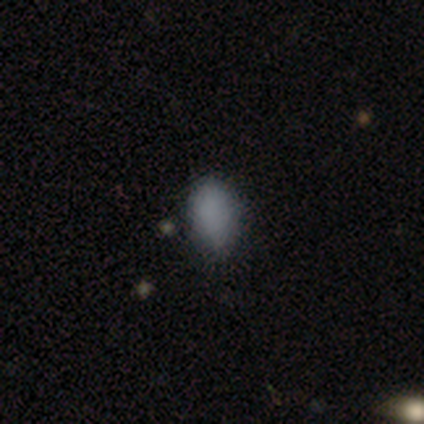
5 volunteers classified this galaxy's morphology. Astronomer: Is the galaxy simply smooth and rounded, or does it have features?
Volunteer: star or artifact — 60% (runner-up: smooth, 40%).